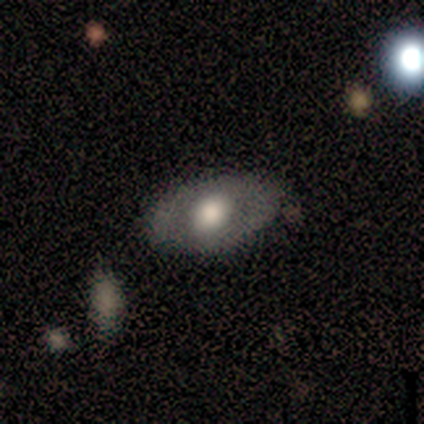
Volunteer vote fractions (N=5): Volunteers were most divided on "smooth or featured": smooth: 80%, featured or disk: 20%, star or artifact: 0%. More confident: how rounded — in between (100%); merging — none (100%).